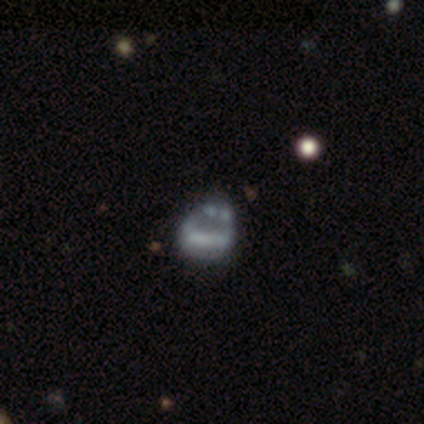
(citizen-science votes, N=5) Smooth or featured: featured or disk — 40% (tied with star or artifact — 40%)
Edge-on disk: no — 100%
Bar: no — 100%
Spiral arms: no — 100%
Bulge size: none — 100%
Merging: minor disturbance — 33% (tied with major disturbance — 33%; merger — 33%)